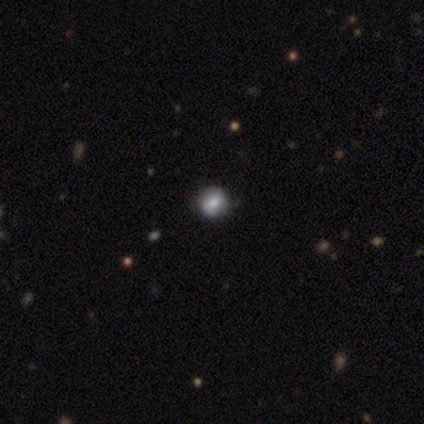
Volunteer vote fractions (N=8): smooth_or_featured: smooth (p=0.62) [alt: star or artifact p=0.25]
how_rounded: round (p=1.00)
merging: none (p=0.67) [alt: minor disturbance p=0.17]